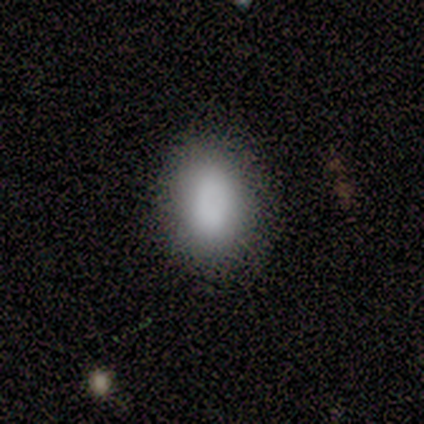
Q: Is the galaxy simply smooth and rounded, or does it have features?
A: smooth — 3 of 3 (100%).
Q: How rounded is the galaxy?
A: in between — 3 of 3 (100%).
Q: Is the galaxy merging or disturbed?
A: none — 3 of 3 (100%).